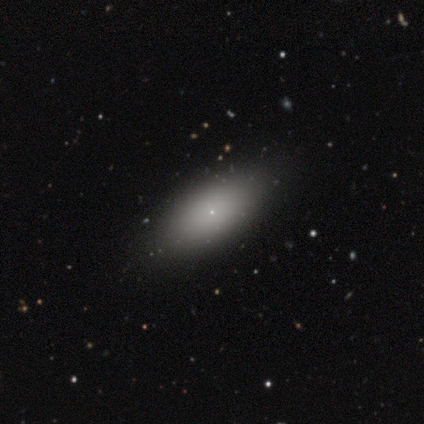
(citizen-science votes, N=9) smooth_or_featured: smooth (p=0.89) [alt: featured or disk p=0.11]
how_rounded: in between (p=1.00)
merging: none (p=0.89) [alt: minor disturbance p=0.11]